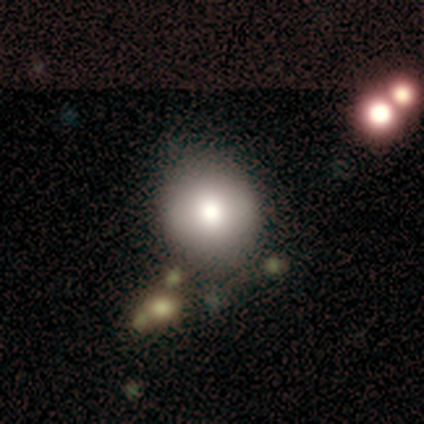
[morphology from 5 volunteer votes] smooth_or_featured: smooth (p=0.60) [alt: featured or disk p=0.20]
how_rounded: in between (p=0.67) [alt: round p=0.33]
merging: none (p=0.75) [alt: minor disturbance p=0.25]